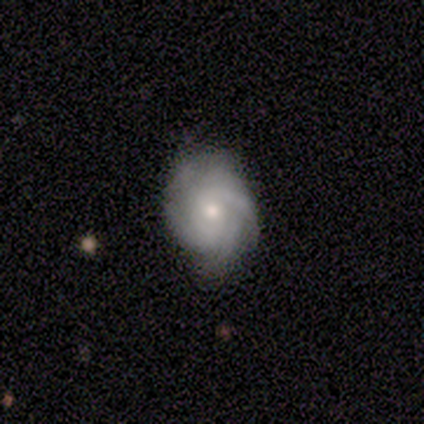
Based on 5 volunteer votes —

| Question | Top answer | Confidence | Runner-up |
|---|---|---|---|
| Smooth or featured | featured or disk | 100% | — |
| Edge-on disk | no | 100% | — |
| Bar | weak | 60% | no (40%) |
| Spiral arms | yes | 100% | — |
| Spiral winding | tight | 60% | medium (40%) |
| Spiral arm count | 3 | 40% | 2 (20%) |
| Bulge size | moderate | 60% | small (40%) |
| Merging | none | 80% | minor disturbance (20%) |